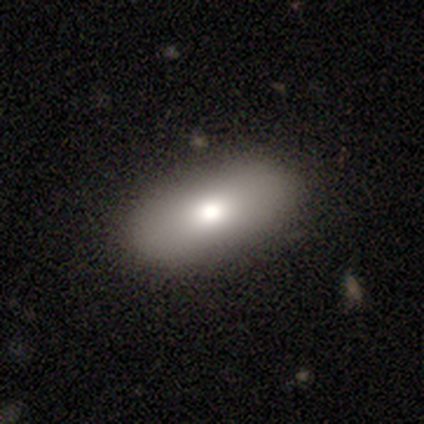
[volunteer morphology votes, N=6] Q: Smooth or featured?
A: smooth (83%); runner-up: featured or disk (17%)
Q: How rounded?
A: in between (60%); runner-up: round (40%)
Q: Merging?
A: none (83%); runner-up: major disturbance (17%)